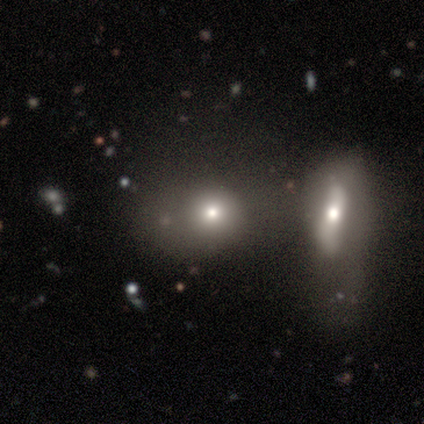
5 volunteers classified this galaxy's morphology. Q: Smooth or featured?
A: smooth (60%); runner-up: featured or disk (20%)
Q: How rounded?
A: round (100%)
Q: Merging?
A: merger (75%); runner-up: none (25%)